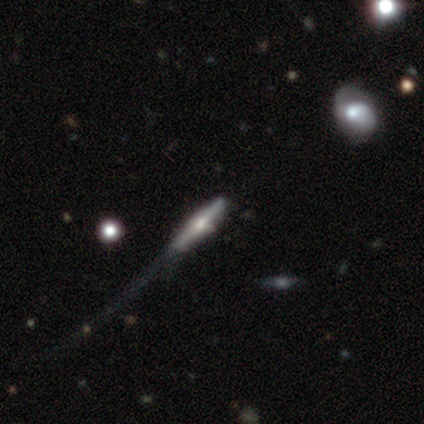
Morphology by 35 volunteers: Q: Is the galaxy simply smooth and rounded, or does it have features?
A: featured or disk — 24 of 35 (69%).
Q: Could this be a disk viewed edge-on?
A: yes — 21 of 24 (88%).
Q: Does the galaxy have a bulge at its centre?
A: rounded — 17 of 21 (81%).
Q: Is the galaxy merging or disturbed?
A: none — 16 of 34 (47%).